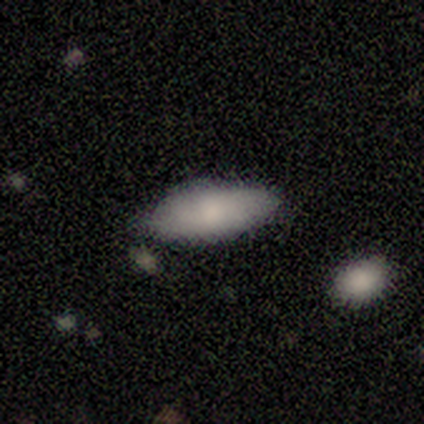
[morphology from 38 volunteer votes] This is likely a smooth galaxy (68%). How rounded: clearly in between (85%). Merging: clearly none (80%).